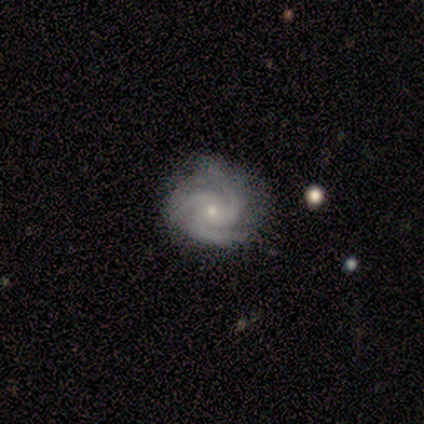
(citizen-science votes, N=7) Volunteers were most divided on "bulge size" (2-way tie): moderate: 50%, small: 50%, dominant: 0%, large: 0%, none: 0%. More confident: edge-on disk — no (100%); spiral arms — yes (100%); spiral arm count — 3 (100%); smooth or featured — featured or disk (86%); bar — no (83%); spiral winding — tight (83%); merging — none (71%).